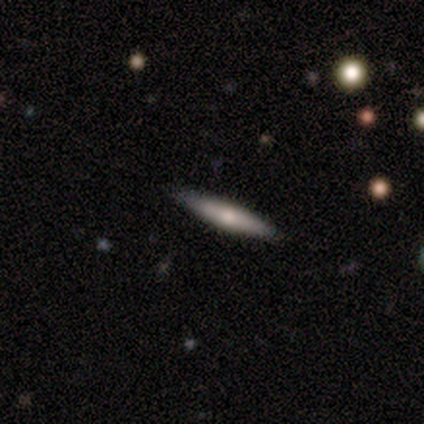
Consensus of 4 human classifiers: smooth_or_featured: smooth (p=0.75) [alt: featured or disk p=0.25]
how_rounded: cigar-shaped (p=1.00)
merging: none (p=1.00)